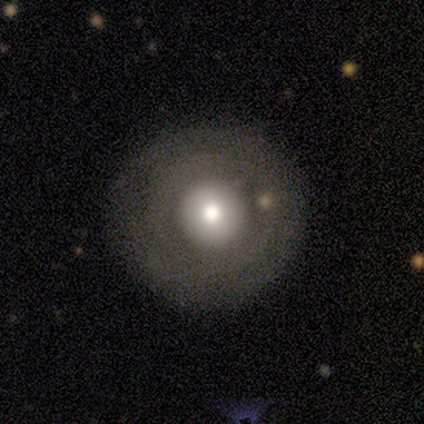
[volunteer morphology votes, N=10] Smooth or featured?
  - smooth: 80% *
  - featured or disk: 20%
  - star or artifact: 0%
How rounded?
  - round: 100% *
  - in between: 0%
  - cigar-shaped: 0%
Merging?
  - none: 80% *
  - major disturbance: 20%
  - minor disturbance: 0%
  - merger: 0%